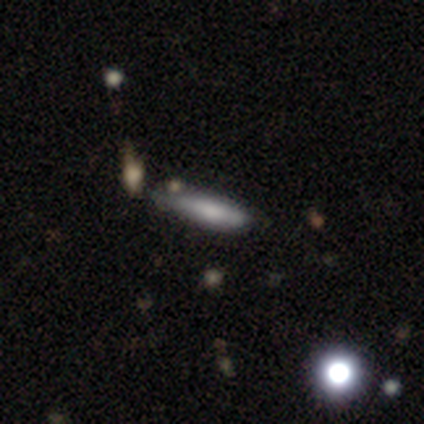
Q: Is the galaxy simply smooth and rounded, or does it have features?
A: smooth — 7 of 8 (88%).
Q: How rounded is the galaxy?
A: cigar-shaped — 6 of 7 (86%).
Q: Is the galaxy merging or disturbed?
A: none — 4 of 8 (50%).